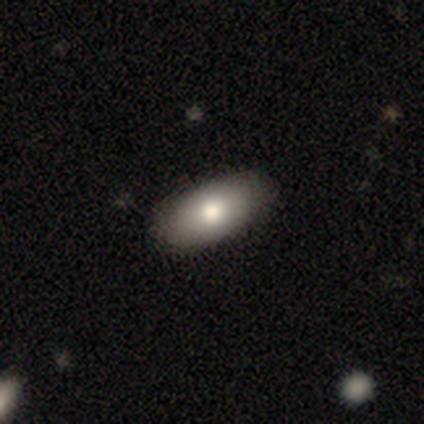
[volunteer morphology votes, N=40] smooth_or_featured: smooth (p=0.80) [alt: featured or disk p=0.12]
how_rounded: in between (p=1.00)
merging: none (p=0.59) [alt: minor disturbance p=0.11]